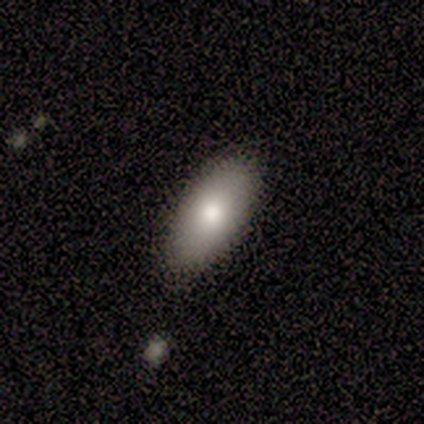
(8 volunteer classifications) Smooth or featured? smooth (88%)
How rounded? in between (86%)
Merging? none (62%)